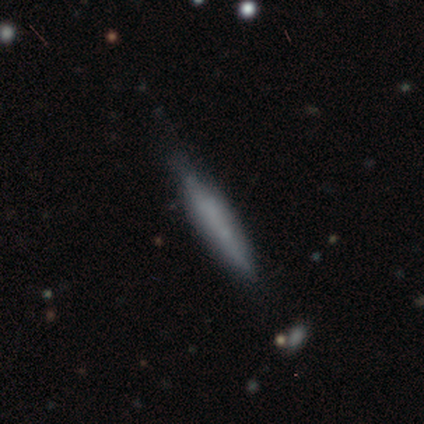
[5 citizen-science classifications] Smooth or featured? smooth (80%)
How rounded? cigar-shaped (100%)
Merging? none (60%)